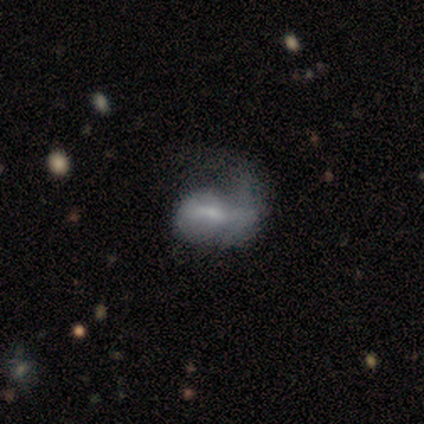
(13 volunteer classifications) smooth 46%, featured or disk 38%, star or artifact 15%. Down the decision tree: how rounded — in between (83%); merging — major disturbance (55%).